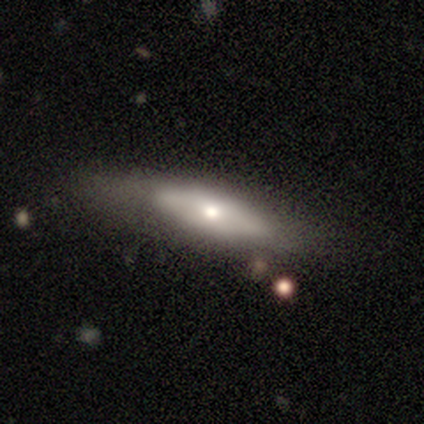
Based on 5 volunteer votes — Volunteers were most divided on "smooth or featured": smooth: 60%, featured or disk: 40%, star or artifact: 0%. More confident: merging — none (100%); how rounded — cigar-shaped (67%).